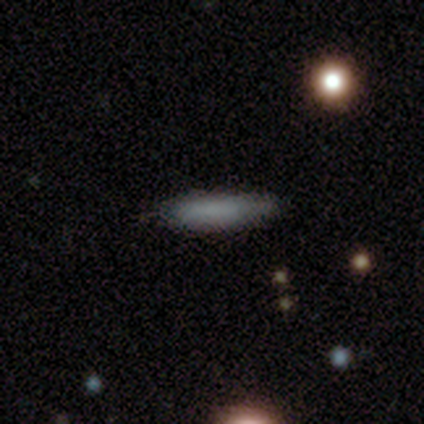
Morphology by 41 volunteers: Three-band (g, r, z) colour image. It shows a smooth galaxy with no disk features (76%) that is cigar-shaped (84%). Merging: none (83%).